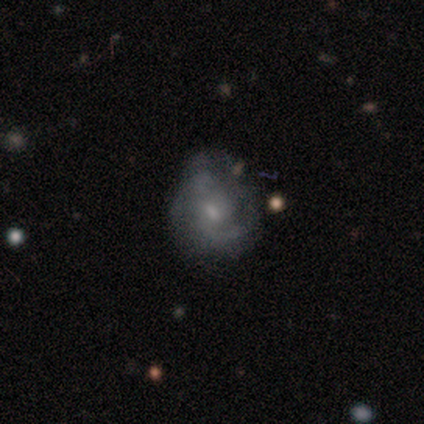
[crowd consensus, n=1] smooth-or-featured: featured or disk: 100% | smooth: 0% | star or artifact: 0%
  disk-edge-on: no: 100% | yes: 0%
    bar: no: 100% | strong: 0% | weak: 0%
    has-spiral-arms: yes: 100% | no: 0%
      spiral-winding: tight: 100% | medium: 0% | loose: 0%
      spiral-arm-count: 2: 100% | 1: 0% | 3: 0% | 4: 0% | more than 4: 0% | can't tell: 0%
    bulge-size: none: 100% | dominant: 0% | large: 0% | moderate: 0% | small: 0%
  merging: none: 100% | minor disturbance: 0% | major disturbance: 0% | merger: 0%